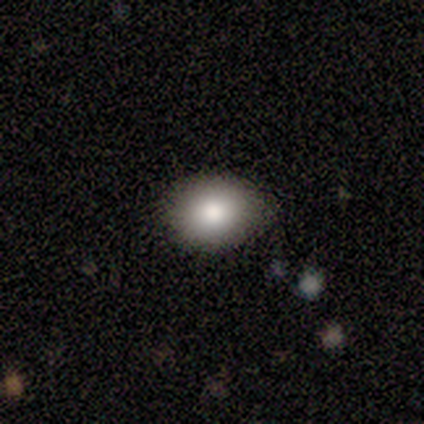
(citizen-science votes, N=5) Q: Smooth or featured?
A: smooth (100%)
Q: How rounded?
A: round (60%); runner-up: in between (40%)
Q: Merging?
A: none (80%); runner-up: minor disturbance (20%)